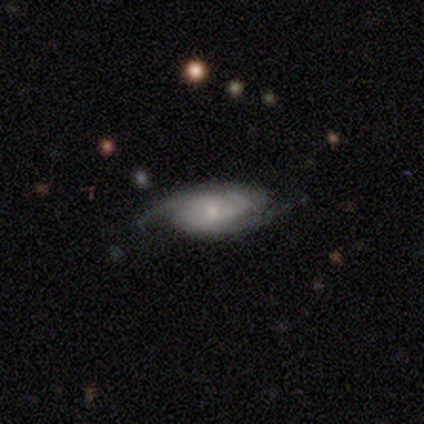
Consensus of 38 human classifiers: Smooth or featured? featured or disk (74%)
Edge-on disk? no (93%)
Bar? no (85%)
Spiral arms? yes (96%)
Spiral winding? medium (48%)
Spiral arm count? 2 (40%, tied with 3)
Bulge size? small (54%)
Merging? none (66%)